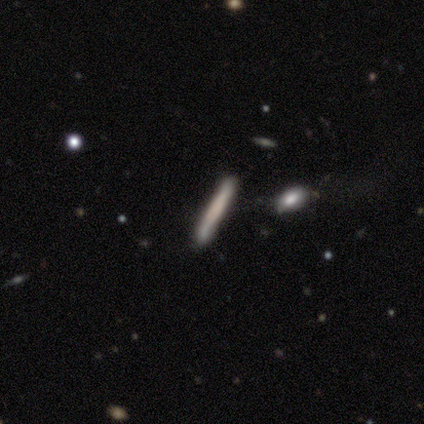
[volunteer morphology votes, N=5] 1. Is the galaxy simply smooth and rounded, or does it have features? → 60% smooth, 20% featured or disk, 20% star or artifact.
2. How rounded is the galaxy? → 100% cigar-shaped, 0% round, 0% in between.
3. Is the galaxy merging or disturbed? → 75% none, 25% minor disturbance, 0% major disturbance, 0% merger.